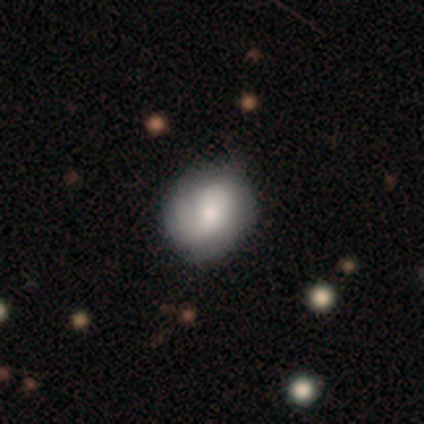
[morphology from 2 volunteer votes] Q: Smooth or featured?
A: smooth (100%)
Q: How rounded?
A: round (50%); tied with: in between (50%)
Q: Merging?
A: none (100%)